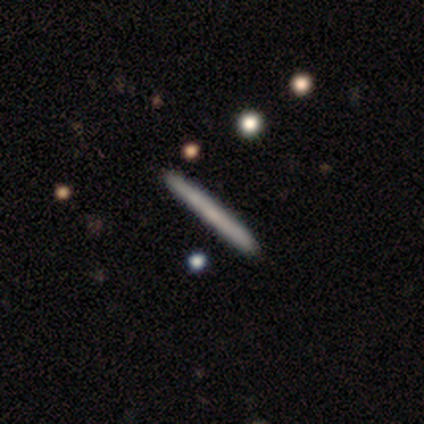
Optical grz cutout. It shows a smooth galaxy with no disk features (50%, tied with featured or disk) that is cigar-shaped (80%). Merging: none (80%).